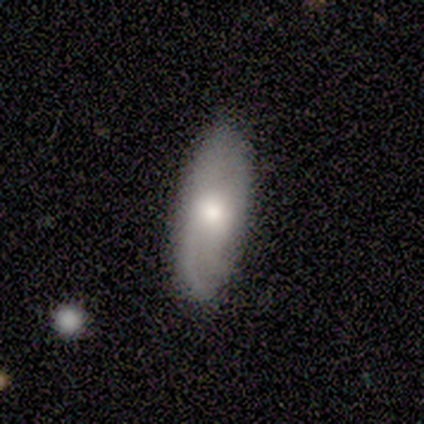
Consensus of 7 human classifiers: Volunteers were most divided on "spiral arms" (2-way tie): yes: 50%, no: 50%. More confident: edge-on disk — no (100%); bar — no (100%); spiral winding — tight (100%); spiral arm count — can't tell (100%); merging — none (100%); bulge size — moderate (75%); smooth or featured — featured or disk (57%).